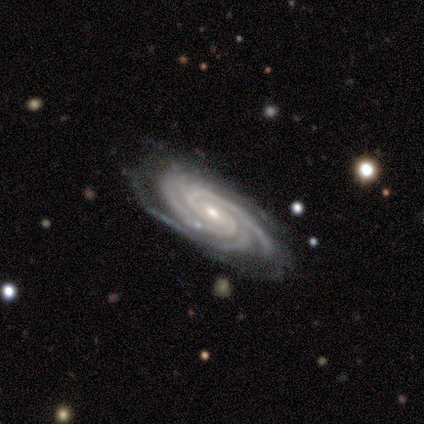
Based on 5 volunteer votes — This appears to be a featured or disk galaxy (100%) with a weak bar (50%, tied with no), more than 4 (50%) tight (100%) spiral arms (100%) and a small central bulge (100%). Merging: none (60%).